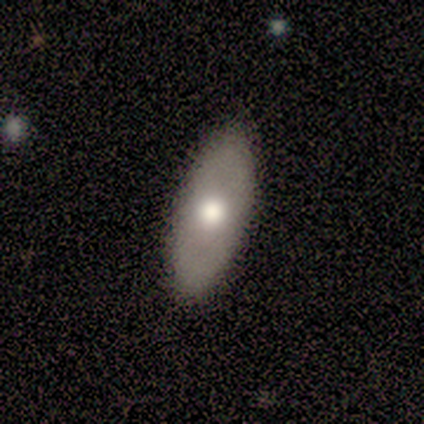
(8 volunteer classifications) Smooth or featured? 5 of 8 (62%) said smooth. How rounded? 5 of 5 (100%) said in between. Merging? 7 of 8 (88%) said none.